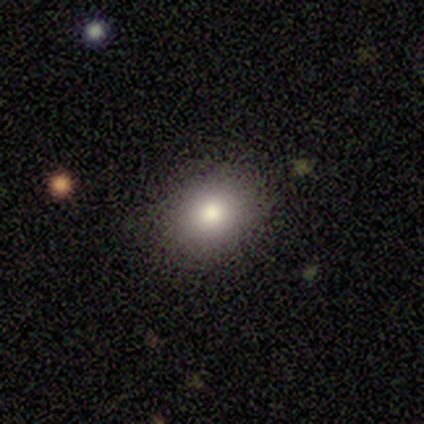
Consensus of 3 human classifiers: This appears to be a smooth galaxy with no disk features (100%) that is round (100%). Merging: none (100%).